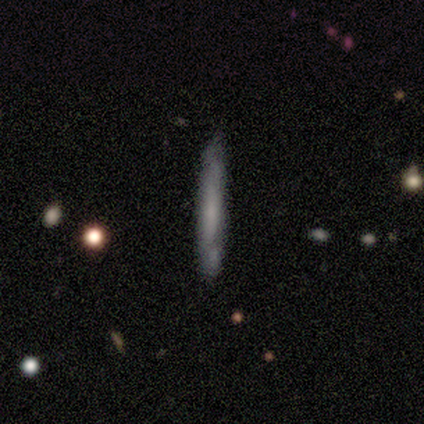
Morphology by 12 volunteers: smooth_or_featured: featured or disk (p=0.58) [alt: smooth p=0.42]
disk_edge_on: yes (p=1.00)
edge_on_bulge: none (p=1.00)
merging: none (p=0.83) [alt: minor disturbance p=0.17]